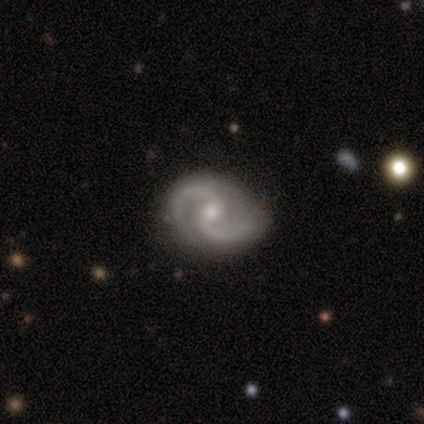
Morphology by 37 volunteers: This appears to be a featured or disk galaxy (97%) with a weak bar (50%), 2 (94%) medium (63%) spiral arms (97%) and a small central bulge (56%). Merging: none (69%).